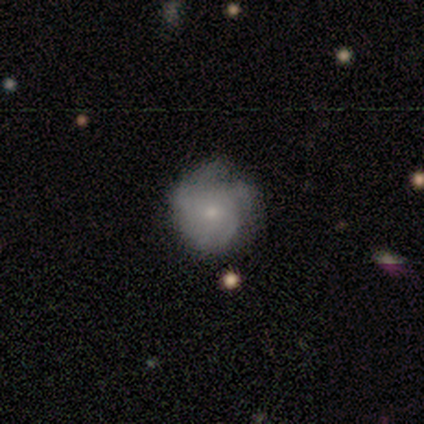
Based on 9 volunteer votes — smooth_or_featured: featured or disk (p=0.89) [alt: smooth p=0.11]
disk_edge_on: no (p=0.88) [alt: yes p=0.12]
bar: no (p=0.86) [alt: weak p=0.14]
has_spiral_arms: yes (p=1.00)
spiral_winding: tight (p=0.57) [alt: loose p=0.29]
spiral_arm_count: can't tell (p=0.43) [alt: 3 p=0.29]
bulge_size: small (p=1.00)
merging: none (p=0.56) [alt: minor disturbance p=0.44]